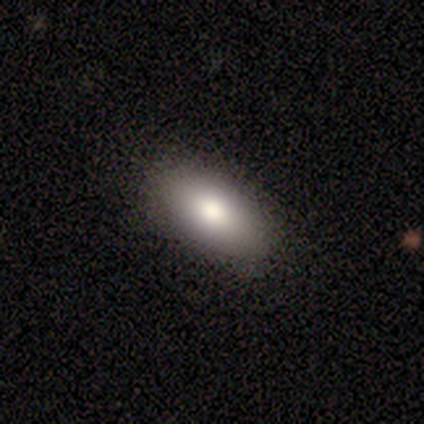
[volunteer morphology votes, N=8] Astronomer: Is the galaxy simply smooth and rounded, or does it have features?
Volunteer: smooth — 100%.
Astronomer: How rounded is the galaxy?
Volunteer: in between — 100%.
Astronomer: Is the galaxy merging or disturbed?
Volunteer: none — 88%.